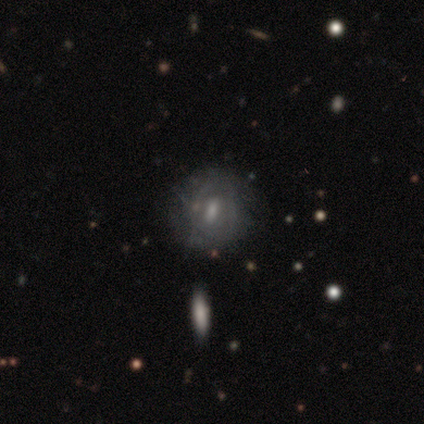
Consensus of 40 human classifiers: This appears to be a featured or disk galaxy (57%) with a weak bar (52%), tight (40%) spiral arms (65%) and a moderate central bulge (52%). Merging: none (69%).